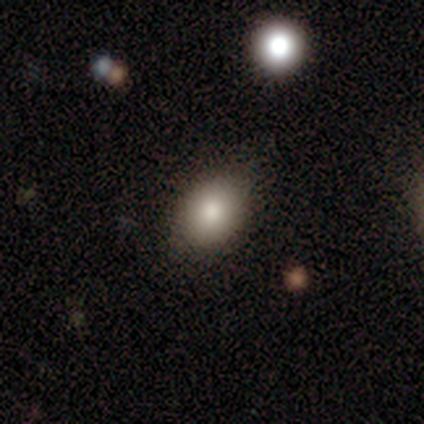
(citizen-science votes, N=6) Smooth or featured? smooth (83%)
How rounded? in between (100%)
Merging? none (80%)